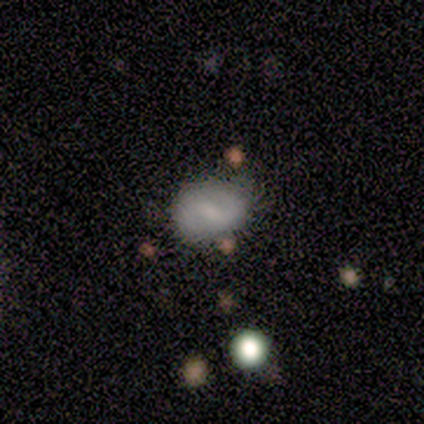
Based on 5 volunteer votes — This appears to be a smooth galaxy with no disk features (60%) that is in between round and cigar-shaped (67%). Merging: none (60%).